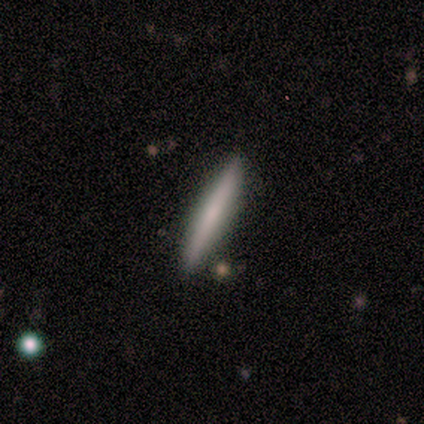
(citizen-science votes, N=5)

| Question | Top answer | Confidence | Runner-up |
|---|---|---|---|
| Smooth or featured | smooth | 60% | featured or disk (40%) |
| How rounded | cigar-shaped | 67% | in between (33%) |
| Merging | none | 100% | — |